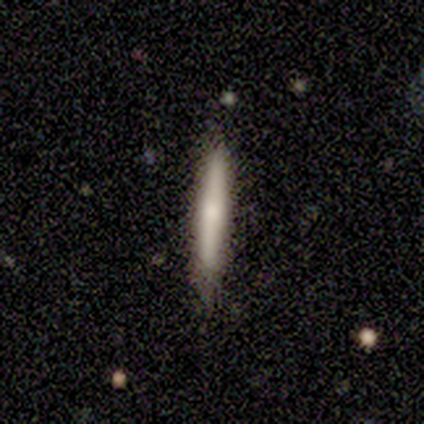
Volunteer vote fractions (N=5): Smooth or featured: smooth — 80% (featured or disk — 20%)
How rounded: cigar-shaped — 100%
Merging: none — 80% (merger — 20%)